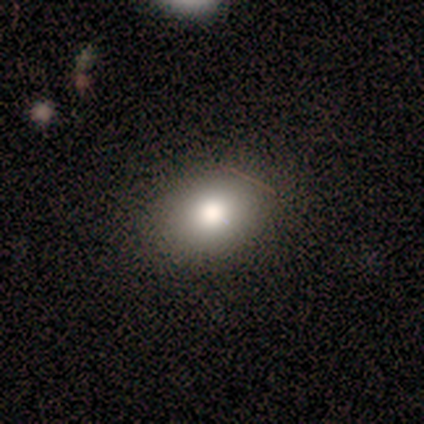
Overall: smooth (57%; star or artifact 29%). How rounded: in between (75%). Merging: none (80%).